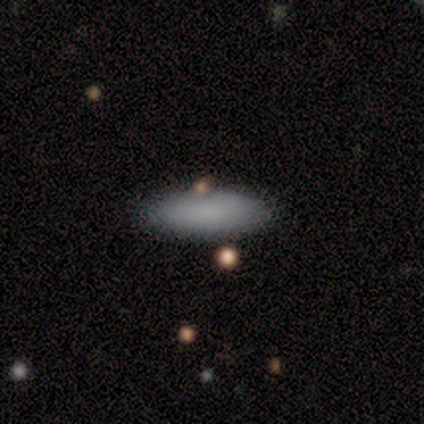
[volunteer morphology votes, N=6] This is clearly a smooth galaxy (100%). How rounded: possibly in between (50%, tied with cigar-shaped). Merging: likely none (67%).